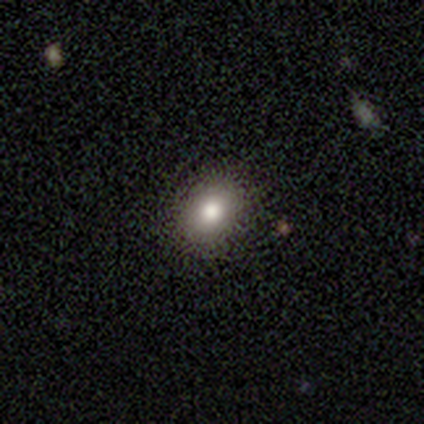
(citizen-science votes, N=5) Morphology: type=smooth (60%); roundness=in between (100%); merging=none (100%).